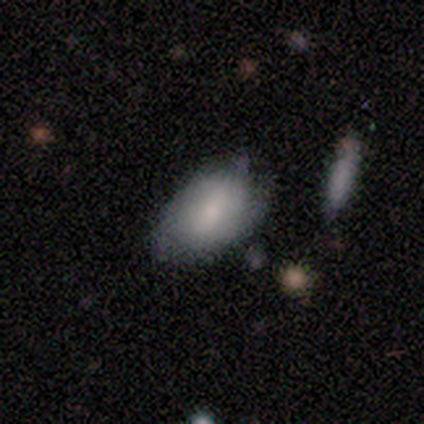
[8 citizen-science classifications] Overall: smooth (88%). How rounded: in between (100%). Merging: minor disturbance (75%).